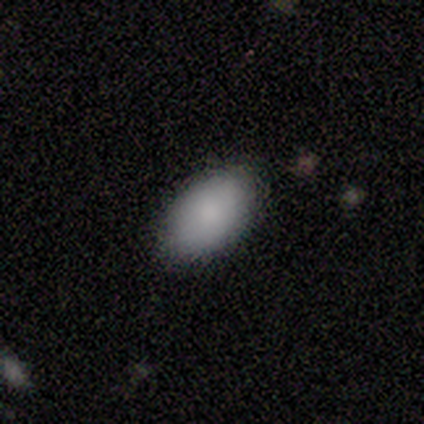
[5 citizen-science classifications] Smooth or featured: smooth — 100%
How rounded: in between — 100%
Merging: none — 80% (minor disturbance — 20%)